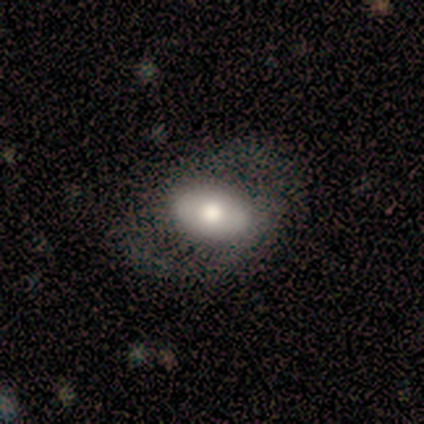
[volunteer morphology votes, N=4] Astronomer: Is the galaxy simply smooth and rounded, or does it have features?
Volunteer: smooth — 50%, tied with featured or disk at 50%.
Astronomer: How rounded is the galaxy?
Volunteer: in between — 100%.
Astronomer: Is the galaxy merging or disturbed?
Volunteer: none — 100%.